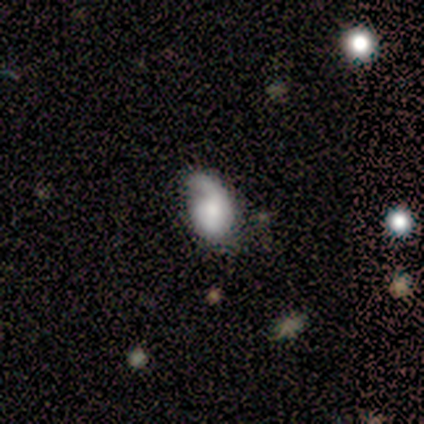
A smooth galaxy with no disk features (60%) that is in between round and cigar-shaped (100%).

Vote fractions:
- Smooth or featured? smooth: 60% / featured or disk: 40% / star or artifact: 0%
- How rounded? in between: 100% / round: 0% / cigar-shaped: 0%
- Merging? major disturbance: 60% / none: 20% / minor disturbance: 20% / merger: 0%